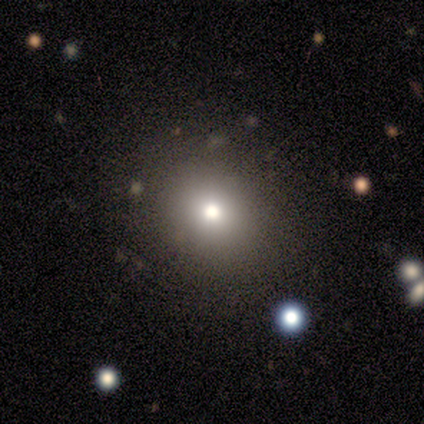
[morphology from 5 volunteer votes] Overall: smooth (60%; featured or disk 20%). How rounded: round (100%). Merging: none (100%).